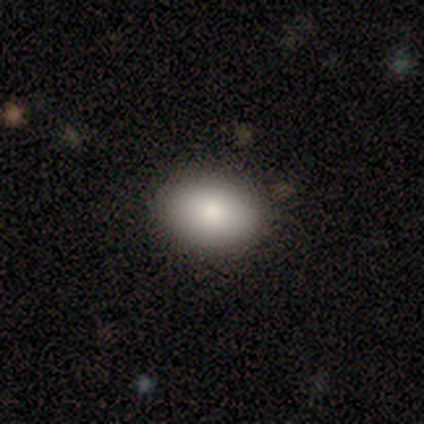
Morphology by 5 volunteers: Overall: smooth (100%). How rounded: in between (80%). Merging: none (80%).